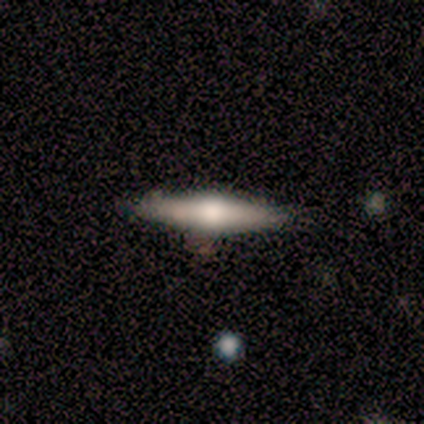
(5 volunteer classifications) featured or disk 60%, smooth 40%, star or artifact 0%. Down the decision tree: edge-on disk — yes (100%); edge-on bulge — rounded (67%); merging — none (100%).